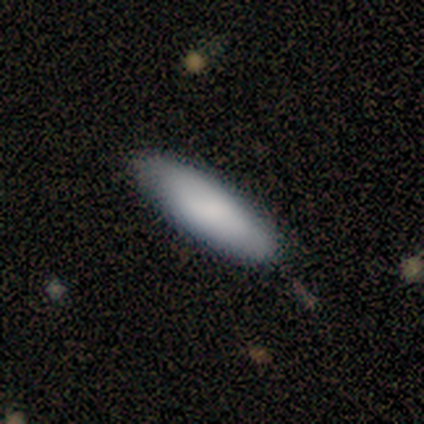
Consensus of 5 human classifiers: smooth_or_featured: smooth (p=1.00)
how_rounded: cigar-shaped (p=0.60) [alt: in between p=0.40]
merging: none (p=0.60) [alt: minor disturbance p=0.40]